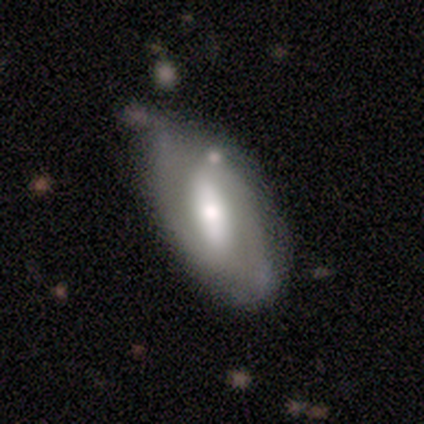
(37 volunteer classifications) smooth_or_featured: featured or disk (p=0.78) [alt: smooth p=0.19]
disk_edge_on: no (p=0.86) [alt: yes p=0.14]
bar: strong (p=0.64) [alt: weak p=0.28]
has_spiral_arms: yes (p=0.80) [alt: no p=0.20]
spiral_winding: medium (p=0.60) [alt: tight p=0.20]
spiral_arm_count: 2 (p=0.90) [alt: can't tell p=0.10]
bulge_size: moderate (p=0.60) [alt: small p=0.20]
merging: none (p=0.44) [alt: minor disturbance p=0.39]